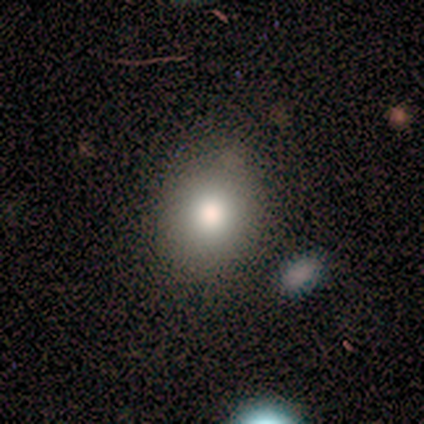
Morphology: type=smooth (72%); roundness=round (55%); merging=none (79%).